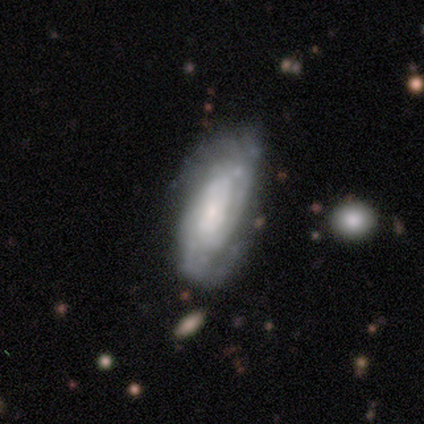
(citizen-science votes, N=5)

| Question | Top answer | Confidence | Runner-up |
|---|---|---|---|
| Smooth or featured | featured or disk | 100% | — |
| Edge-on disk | no | 100% | — |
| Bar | no | 100% | — |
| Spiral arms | yes | 80% | no (20%) |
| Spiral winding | tight | 75% | medium (25%) |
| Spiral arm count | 2 | 50% | tied: can't tell (50%) |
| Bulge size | small | 80% | large (20%) |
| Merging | none | 100% | — |